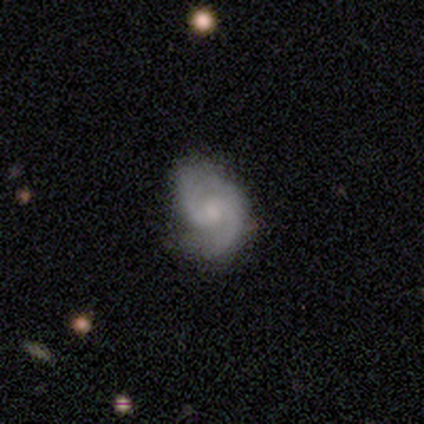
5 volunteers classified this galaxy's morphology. Smooth or featured: featured or disk — 80% (smooth — 20%)
Edge-on disk: no — 100%
Bar: no — 75% (weak — 25%)
Spiral arms: yes — 100%
Spiral winding: medium — 75% (tight — 25%)
Spiral arm count: 2 — 100%
Bulge size: moderate — 50% (small — 25%)
Merging: none — 80% (minor disturbance — 20%)